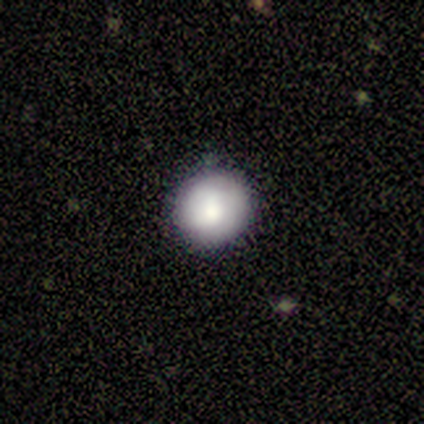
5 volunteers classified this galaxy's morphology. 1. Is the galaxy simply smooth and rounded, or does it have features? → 80% smooth, 20% star or artifact, 0% featured or disk.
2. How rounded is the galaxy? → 100% round, 0% in between, 0% cigar-shaped.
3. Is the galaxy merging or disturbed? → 100% none, 0% minor disturbance, 0% major disturbance, 0% merger.